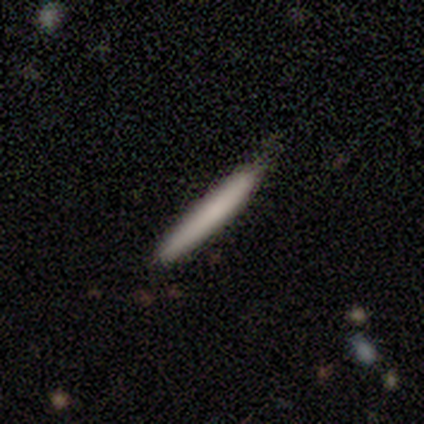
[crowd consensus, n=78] Smooth or featured?
  - smooth: 77% *
  - featured or disk: 19%
  - star or artifact: 4%
How rounded?
  - cigar-shaped: 98% *
  - in between: 2%
  - round: 0%
Merging?
  - none: 41% *
  - minor disturbance: 8%
  - major disturbance: 1%
  - merger: 1%